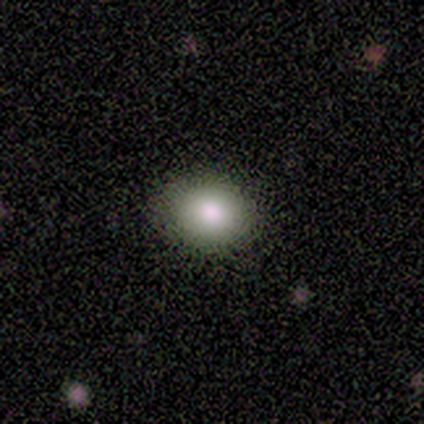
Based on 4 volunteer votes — Smooth or featured? smooth (75%)
How rounded? in between (67%)
Merging? none (100%)